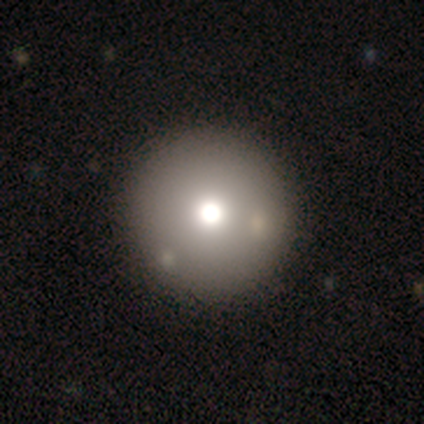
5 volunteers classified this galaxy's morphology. Smooth or featured? 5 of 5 (100%) said smooth. How rounded? 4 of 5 (80%) said round. Merging? 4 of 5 (80%) said none.